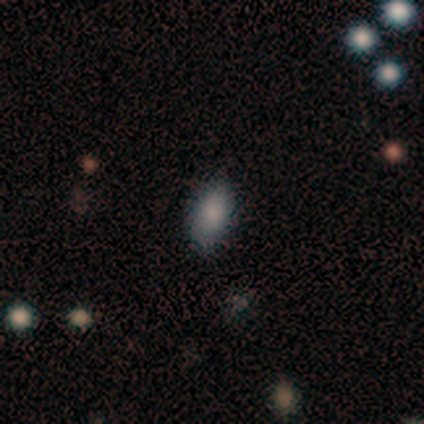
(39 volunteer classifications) A smooth galaxy with no disk features (82%) that is in between round and cigar-shaped (97%).

Vote fractions:
- Smooth or featured? smooth: 82% / star or artifact: 15% / featured or disk: 3%
- How rounded? in between: 97% / cigar-shaped: 3% / round: 0%
- Merging? none: 73% / minor disturbance: 27% / major disturbance: 0% / merger: 0%